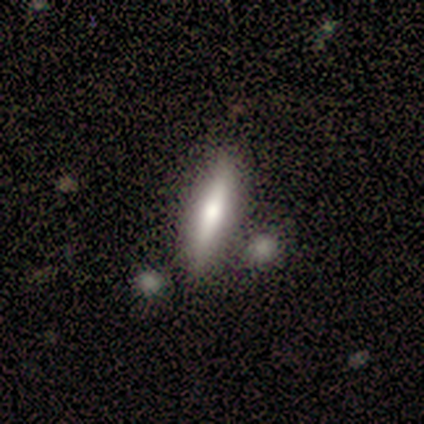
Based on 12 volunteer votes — smooth-or-featured: smooth: 67% | featured or disk: 33% | star or artifact: 0%
  how-rounded: cigar-shaped: 88% | in between: 12% | round: 0%
  merging: none: 92% | minor disturbance: 8% | major disturbance: 0% | merger: 0%